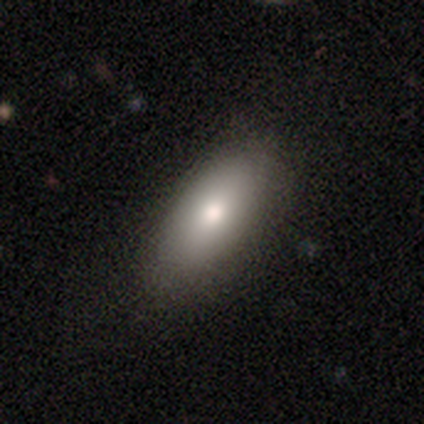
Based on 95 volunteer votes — Smooth or featured? smooth (76%)
How rounded? in between (82%)
Merging? none (84%)